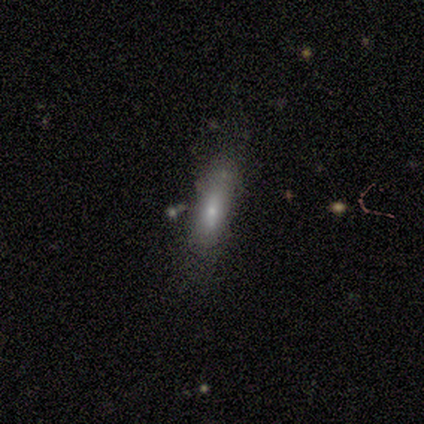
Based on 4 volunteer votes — This is likely a smooth galaxy (75%). How rounded: likely in between (67%). Merging: likely none (75%).